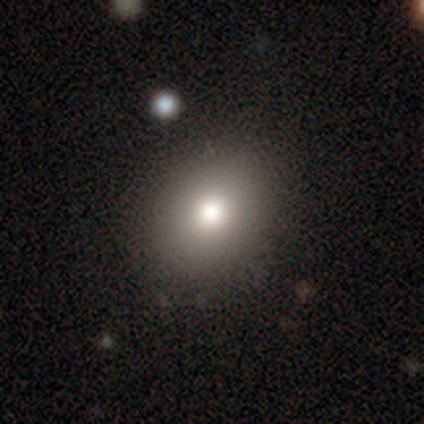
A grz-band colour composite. It shows a smooth galaxy with no disk features (74%) that is round (64%). Merging: none (85%).